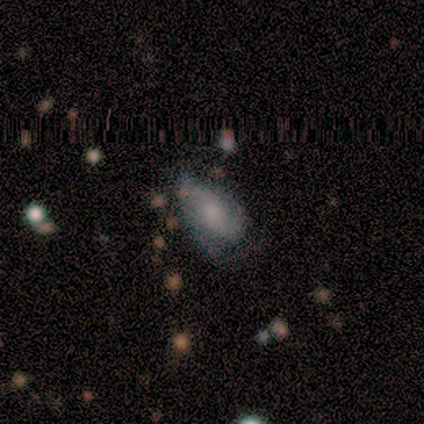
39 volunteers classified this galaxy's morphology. Smooth or featured? featured or disk (56%)
Edge-on disk? no (86%)
Bar? no (63%)
Spiral arms? yes (84%)
Spiral winding? tight (38%, tied with medium)
Spiral arm count? 2 (56%)
Bulge size? moderate (42%)
Merging? none (44%)